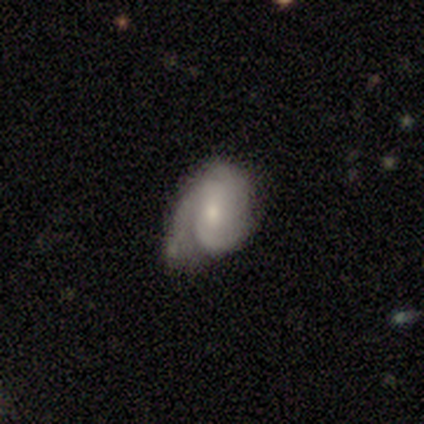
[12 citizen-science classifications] Volunteers were most divided on "spiral winding" (2-way tie): tight: 43%, medium: 43%, loose: 14%. More confident: edge-on disk — no (100%); spiral arms — yes (88%); bar — no (75%); smooth or featured — featured or disk (67%); bulge size — moderate (62%); merging — minor disturbance (58%); spiral arm count — 3 (57%).